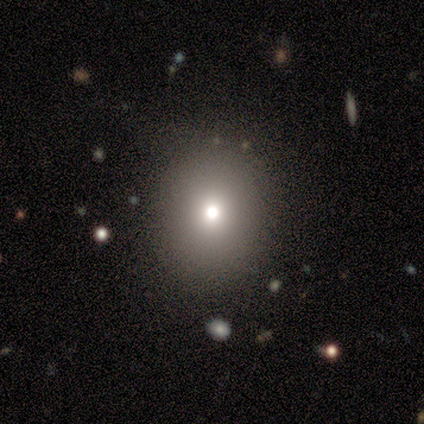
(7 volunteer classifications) Volunteers were most divided on "how rounded": round: 67%, in between: 33%, cigar-shaped: 0%. More confident: merging — none (100%); smooth or featured — smooth (86%).